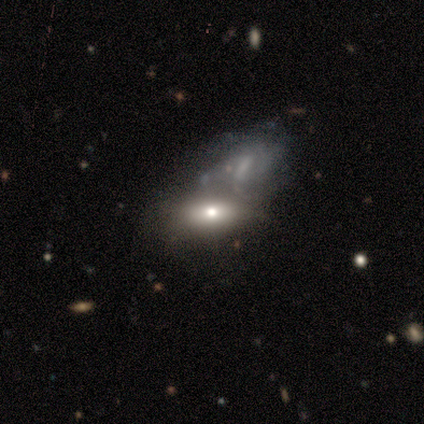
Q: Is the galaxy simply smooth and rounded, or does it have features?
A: featured or disk — 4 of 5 (80%).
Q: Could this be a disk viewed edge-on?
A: no — 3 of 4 (75%).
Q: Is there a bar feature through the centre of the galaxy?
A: no — 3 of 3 (100%).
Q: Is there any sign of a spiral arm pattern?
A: no — 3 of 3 (100%).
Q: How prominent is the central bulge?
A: moderate — 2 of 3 (67%).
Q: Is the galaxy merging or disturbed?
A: merger — 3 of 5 (60%).